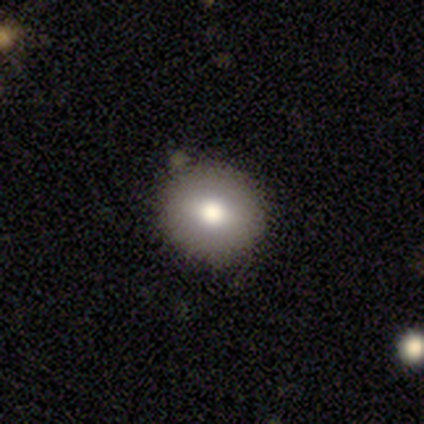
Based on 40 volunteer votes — Smooth or featured? 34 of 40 (85%) said smooth. How rounded? 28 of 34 (82%) said round. Merging? 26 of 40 (65%) said none.